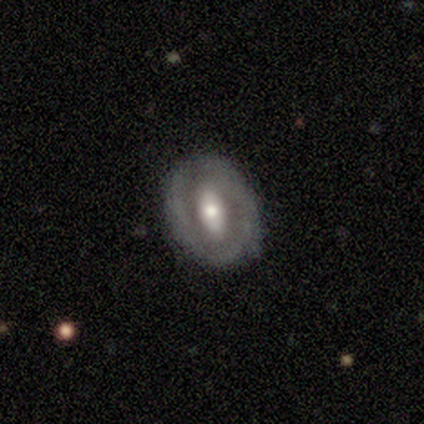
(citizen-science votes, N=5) Morphology: type=featured or disk (80%); edge-on=no (75%); bar=strong (33%, tied with weak and no); spiral arms=no (100%); bulge=moderate (67%); merging=none (80%).